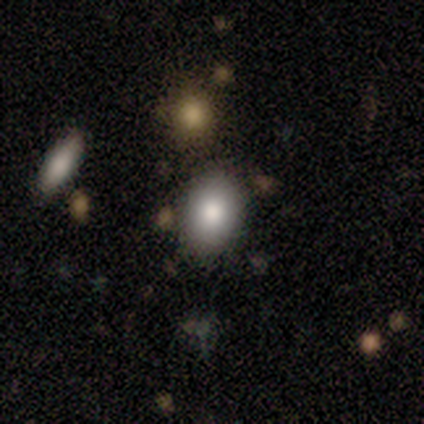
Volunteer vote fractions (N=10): A smooth galaxy with no disk features (80%) that is in between round and cigar-shaped (100%). Merging: none (50%).